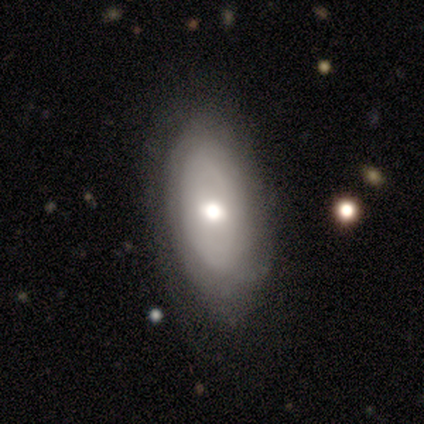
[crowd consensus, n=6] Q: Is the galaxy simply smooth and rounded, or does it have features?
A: featured or disk — 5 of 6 (83%).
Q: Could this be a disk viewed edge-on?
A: no — 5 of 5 (100%).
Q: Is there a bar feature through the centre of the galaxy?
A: no — 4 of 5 (80%).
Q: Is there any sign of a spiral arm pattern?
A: yes — 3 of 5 (60%).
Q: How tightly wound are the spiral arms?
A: tight — 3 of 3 (100%).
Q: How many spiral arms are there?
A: can't tell — 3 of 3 (100%).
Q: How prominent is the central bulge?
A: moderate — 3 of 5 (60%).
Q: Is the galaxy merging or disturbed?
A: none — 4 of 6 (67%).